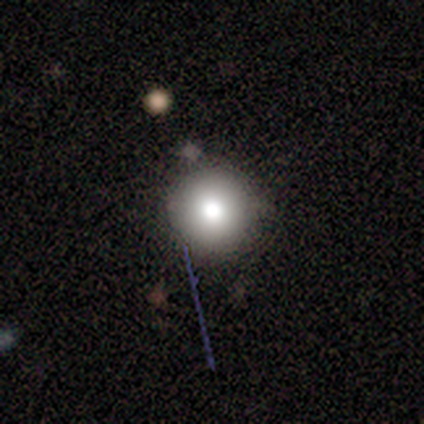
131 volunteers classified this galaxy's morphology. smooth_or_featured: smooth (p=0.70) [alt: star or artifact p=0.16]
how_rounded: round (p=1.00)
merging: none (p=0.85) [alt: minor disturbance p=0.11]